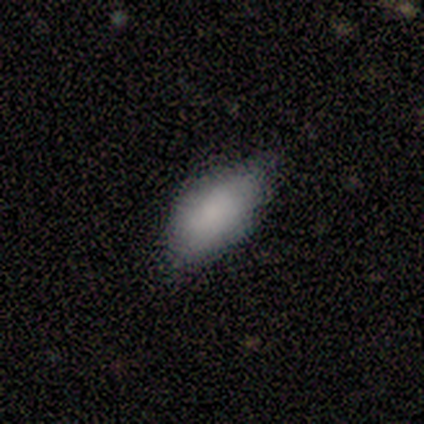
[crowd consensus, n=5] smooth_or_featured: smooth (p=0.80) [alt: star or artifact p=0.20]
how_rounded: in between (p=1.00)
merging: none (p=0.50) [tied with: minor disturbance p=0.50]